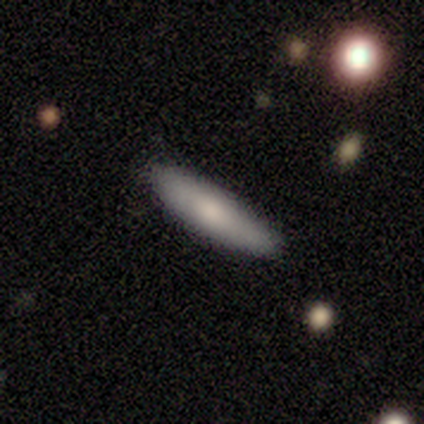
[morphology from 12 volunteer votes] smooth 75%, featured or disk 17%, star or artifact 8%. Down the decision tree: how rounded — cigar-shaped (89%); merging — none (100%).